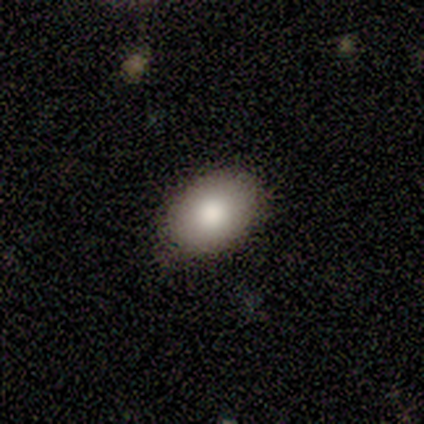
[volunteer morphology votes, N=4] Q: Smooth or featured?
A: smooth (75%); runner-up: star or artifact (25%)
Q: How rounded?
A: in between (100%)
Q: Merging?
A: none (67%); runner-up: minor disturbance (33%)